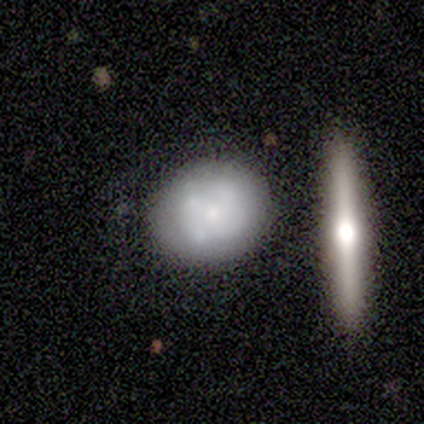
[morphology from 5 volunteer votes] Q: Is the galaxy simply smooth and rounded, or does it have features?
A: smooth — 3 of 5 (60%).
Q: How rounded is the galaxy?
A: round — 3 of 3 (100%).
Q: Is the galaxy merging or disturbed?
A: none — 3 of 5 (60%).